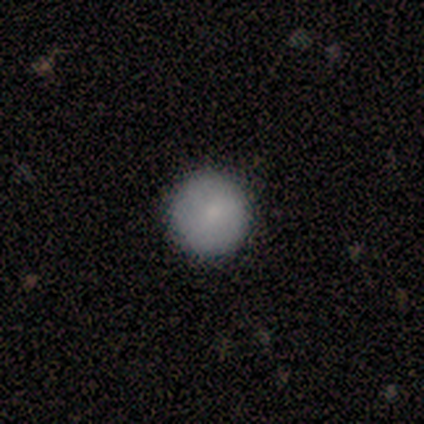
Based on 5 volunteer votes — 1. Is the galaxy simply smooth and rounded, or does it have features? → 100% smooth, 0% featured or disk, 0% star or artifact.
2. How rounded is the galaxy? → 80% round, 20% in between, 0% cigar-shaped.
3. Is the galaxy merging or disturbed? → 80% none, 20% minor disturbance, 0% major disturbance, 0% merger.